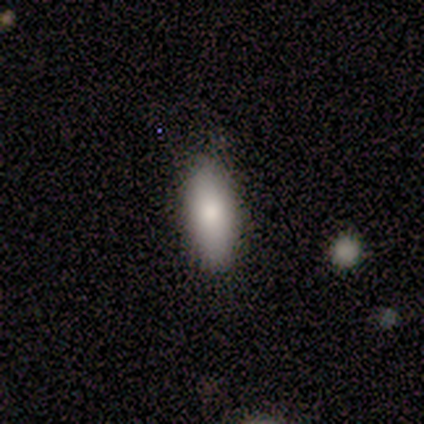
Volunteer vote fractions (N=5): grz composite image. It shows a smooth galaxy with no disk features (80%) that is in between round and cigar-shaped (75%). Merging: none (100%).